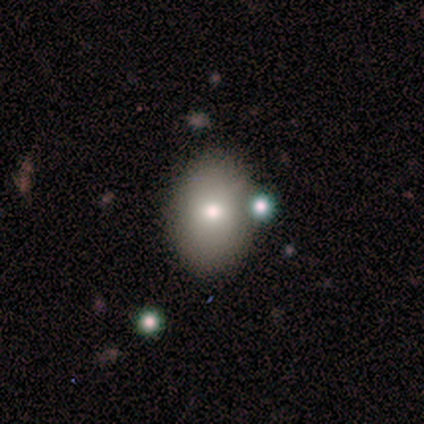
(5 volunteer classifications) A smooth galaxy with no disk features (40%, tied with star or artifact) that is in between round and cigar-shaped (100%).

Vote fractions:
- Smooth or featured? smooth: 40% (tied) / star or artifact: 40% (tied) / featured or disk: 20%
- How rounded? in between: 100% / round: 0% / cigar-shaped: 0%
- Merging? none: 100% / minor disturbance: 0% / major disturbance: 0% / merger: 0%